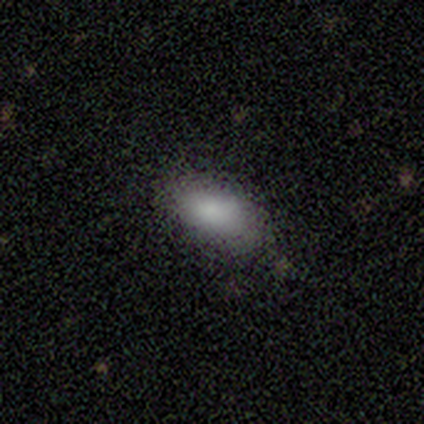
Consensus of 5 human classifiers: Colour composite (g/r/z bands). It shows a smooth galaxy with no disk features (100%) that is in between round and cigar-shaped (100%). Merging: none (80%).